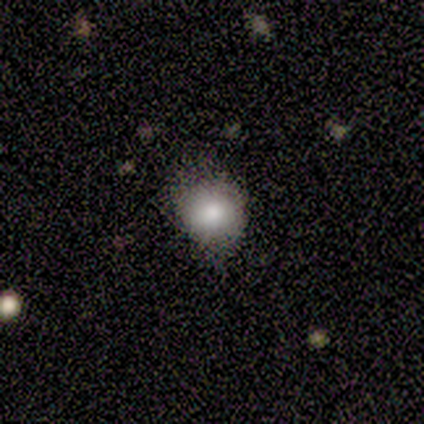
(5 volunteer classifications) smooth-or-featured: smooth: 100% | featured or disk: 0% | star or artifact: 0%
  how-rounded: round: 80% | in between: 20% | cigar-shaped: 0%
  merging: none: 80% | minor disturbance: 20% | major disturbance: 0% | merger: 0%